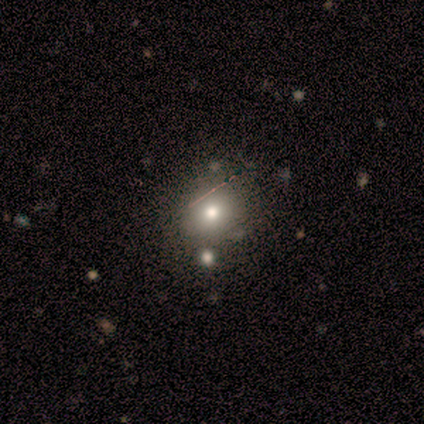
Smooth or featured? smooth (60%)
How rounded? round (100%)
Merging? none (50%, tied with merger)